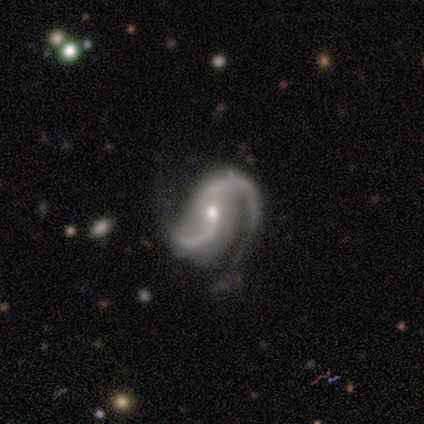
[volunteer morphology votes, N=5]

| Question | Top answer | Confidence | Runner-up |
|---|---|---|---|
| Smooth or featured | featured or disk | 100% | — |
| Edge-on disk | no | 100% | — |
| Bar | weak | 40% | tied: no (40%) |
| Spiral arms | yes | 100% | — |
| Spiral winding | tight | 60% | medium (20%) |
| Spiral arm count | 2 | 100% | — |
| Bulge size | small | 60% | moderate (40%) |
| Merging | none | 100% | — |